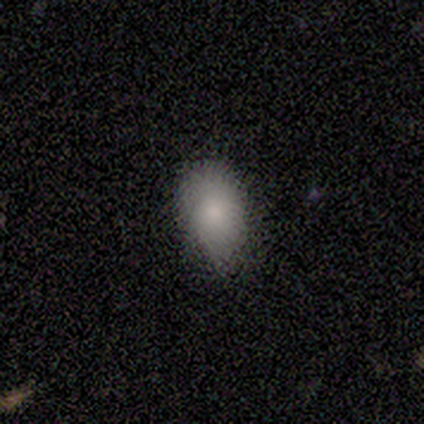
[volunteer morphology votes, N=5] Smooth or featured: smooth — 80% (featured or disk — 20%)
How rounded: in between — 100%
Merging: minor disturbance — 80% (none — 20%)